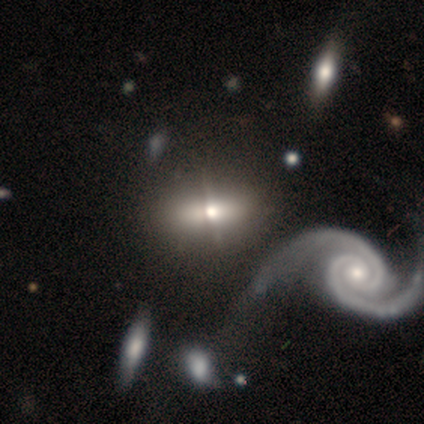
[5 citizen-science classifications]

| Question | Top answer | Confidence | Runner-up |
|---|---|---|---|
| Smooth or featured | featured or disk | 60% | smooth (20%) |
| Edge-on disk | no | 67% | yes (33%) |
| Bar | strong | 50% | tied: no (50%) |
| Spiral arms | yes | 100% | — |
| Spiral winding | tight | 100% | — |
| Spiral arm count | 2 | 100% | — |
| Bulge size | small | 100% | — |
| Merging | none | 75% | major disturbance (25%) |